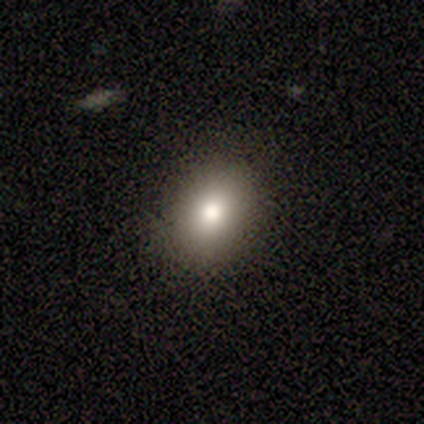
This appears to be a smooth galaxy with no disk features (80%) that is in between round and cigar-shaped (100%). Merging: none (100%).